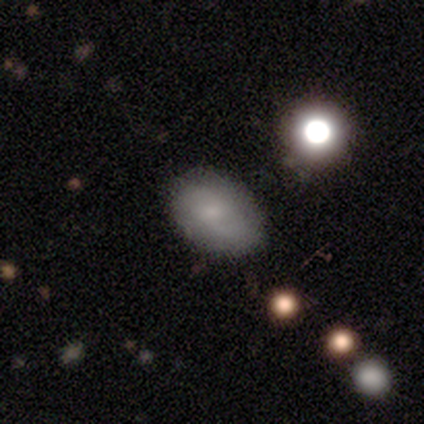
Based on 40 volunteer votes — Smooth or featured? smooth (62%)
How rounded? in between (80%)
Merging? none (68%)